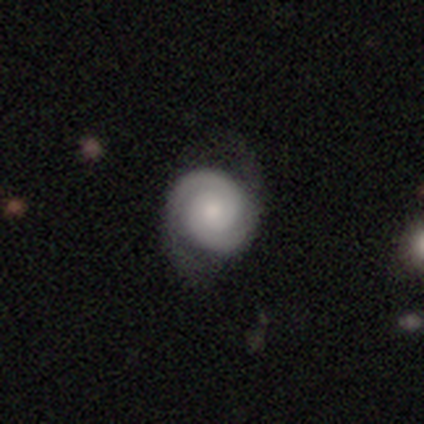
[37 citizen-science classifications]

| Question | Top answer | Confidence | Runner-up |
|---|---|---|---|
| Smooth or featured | featured or disk | 86% | smooth (11%) |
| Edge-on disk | no | 100% | — |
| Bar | no | 81% | weak (16%) |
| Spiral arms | yes | 97% | no (3%) |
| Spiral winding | tight | 84% | medium (13%) |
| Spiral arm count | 2 | 100% | — |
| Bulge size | moderate | 41% | small (38%) |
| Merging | none | 42% | minor disturbance (19%) |